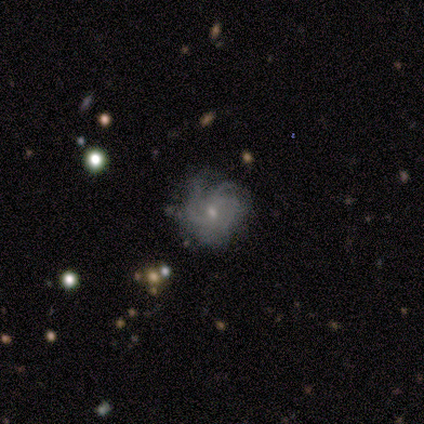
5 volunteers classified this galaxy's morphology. featured or disk 100%, smooth 0%, star or artifact 0%. Down the decision tree: edge-on disk — no (100%); bar — no (80%); spiral arms — yes (80%); spiral arm count — can't tell (50%); spiral winding — tight (75%); bulge size — small (100%); merging — none (60%).